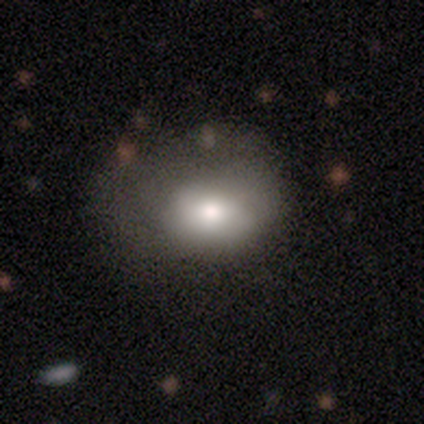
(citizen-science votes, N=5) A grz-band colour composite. It shows a smooth galaxy with no disk features (80%) that is round (50%, tied with in between). Merging: none (60%).